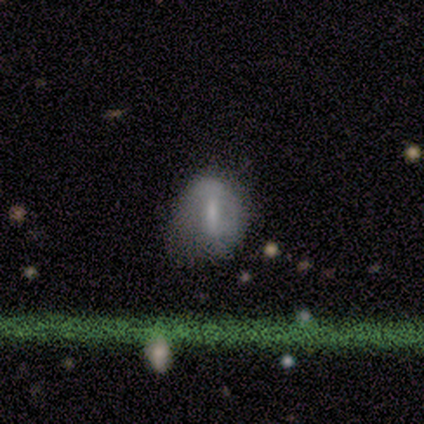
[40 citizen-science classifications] smooth 48%, featured or disk 45%, star or artifact 8%. Down the decision tree: how rounded — in between (53%); merging — none (35%).